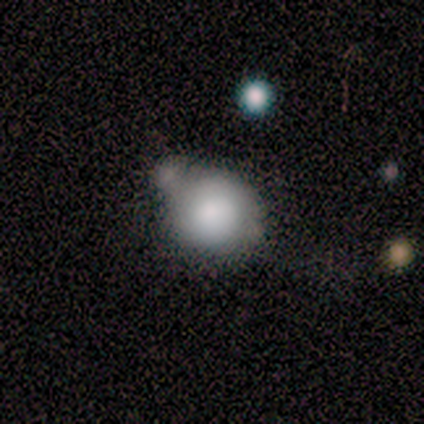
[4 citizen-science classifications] This appears to be a smooth galaxy with no disk features (75%) that is round (100%). Merging: none (50%, tied with minor disturbance).